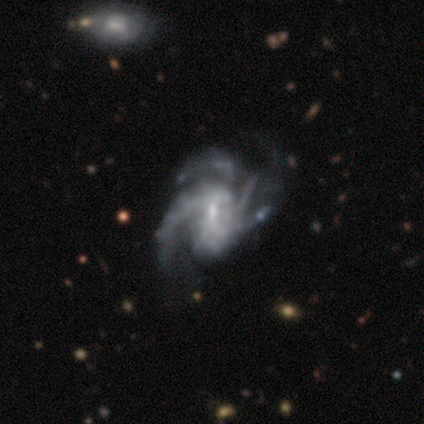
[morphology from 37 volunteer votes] Overall: featured or disk (92%). Edge-on disk: no (100%). Bar: weak (68%). Spiral arms: yes (97%). Spiral arm count: 3 (48%; can't tell 18%). Spiral winding: medium (58%; tight 21%). Bulge size: small (65%; moderate 35%). Merging: major disturbance (39%; none 19%).